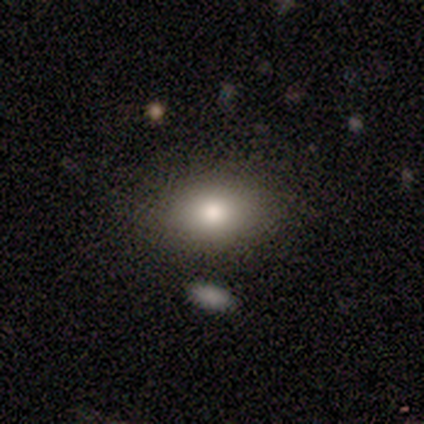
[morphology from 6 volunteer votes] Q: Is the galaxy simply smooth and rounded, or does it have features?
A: smooth — 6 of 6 (100%).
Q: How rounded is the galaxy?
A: in between — 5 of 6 (83%).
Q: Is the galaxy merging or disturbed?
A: none — 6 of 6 (100%).